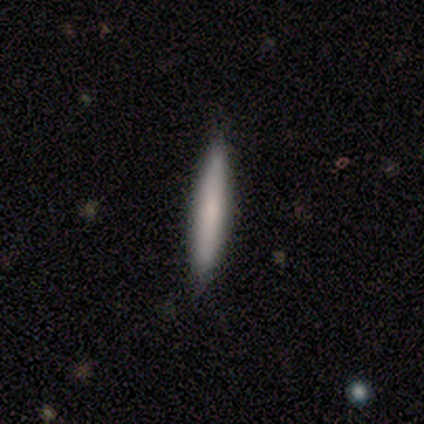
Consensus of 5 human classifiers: smooth-or-featured: smooth: 40% (tied) | featured or disk: 40% (tied) | star or artifact: 20%
  how-rounded: cigar-shaped: 100% | round: 0% | in between: 0%
  merging: none: 75% | merger: 25% | minor disturbance: 0% | major disturbance: 0%